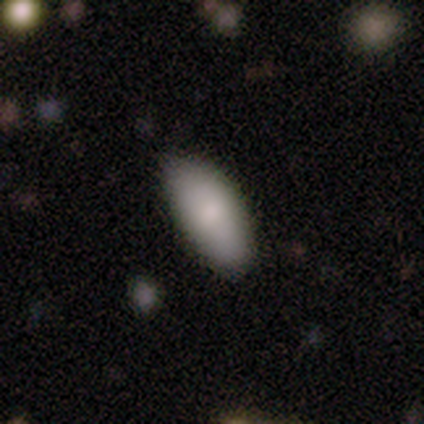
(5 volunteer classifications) This is clearly a smooth galaxy (100%). How rounded: clearly in between (80%). Merging: clearly none (100%).